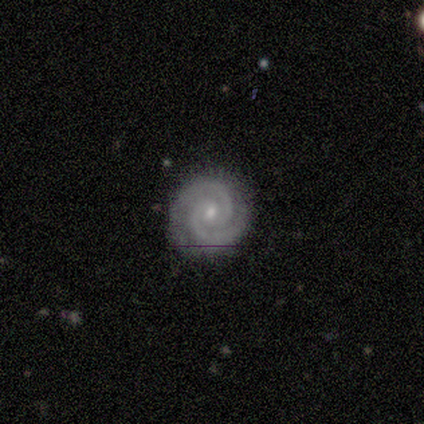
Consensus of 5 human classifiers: Morphology: type=featured or disk (80%); edge-on=no (100%); bar=no (100%); spiral arms=yes (100%); winding=tight (100%); arm count=2 (100%); bulge=small (75%); merging=none (100%).